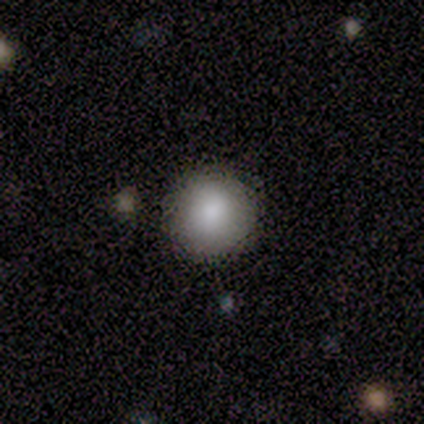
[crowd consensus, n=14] A smooth galaxy with no disk features (79%) that is round (100%). Merging: none (93%).